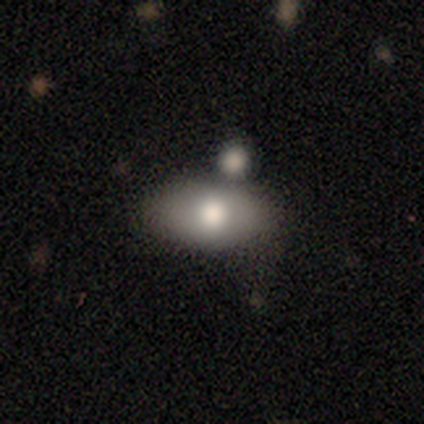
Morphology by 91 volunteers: smooth 68%, featured or disk 16%, star or artifact 15%. Down the decision tree: how rounded — in between (94%); merging — none (56%).